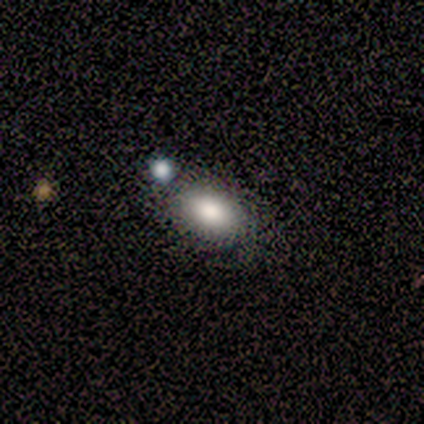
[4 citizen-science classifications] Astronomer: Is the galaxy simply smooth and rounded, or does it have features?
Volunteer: smooth — 75%.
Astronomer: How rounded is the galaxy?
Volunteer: in between — 100%.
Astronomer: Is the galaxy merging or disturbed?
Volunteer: none — 100%.